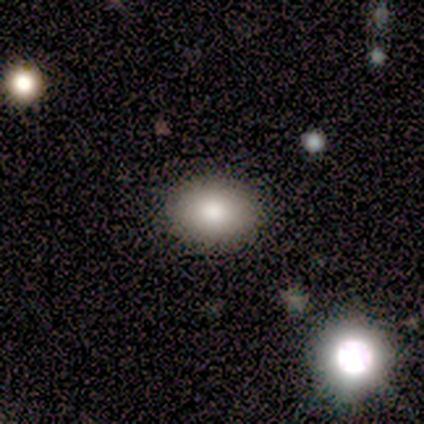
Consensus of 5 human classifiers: This appears to be a smooth galaxy with no disk features (80%) that is round (50%, tied with in between). Merging: none (80%).